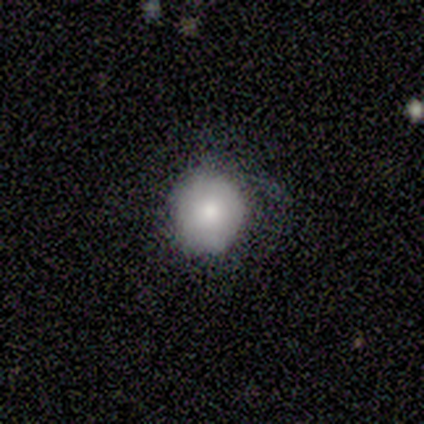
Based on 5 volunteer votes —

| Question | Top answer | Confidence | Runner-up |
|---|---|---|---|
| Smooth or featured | smooth | 80% | featured or disk (20%) |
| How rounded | round | 100% | — |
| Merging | none | 80% | minor disturbance (20%) |